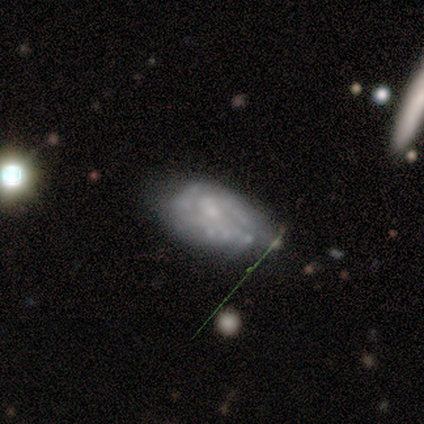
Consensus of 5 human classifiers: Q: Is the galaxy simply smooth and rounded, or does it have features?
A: featured or disk — 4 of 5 (80%).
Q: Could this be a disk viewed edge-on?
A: no — 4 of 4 (100%).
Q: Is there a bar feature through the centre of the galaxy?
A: no — 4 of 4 (100%).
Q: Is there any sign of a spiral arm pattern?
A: yes — 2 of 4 (50%, tied with no).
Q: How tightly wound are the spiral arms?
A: medium — 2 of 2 (100%).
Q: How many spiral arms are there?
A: can't tell — 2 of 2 (100%).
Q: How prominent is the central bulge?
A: none — 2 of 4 (50%).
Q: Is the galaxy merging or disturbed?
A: major disturbance — 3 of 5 (60%).